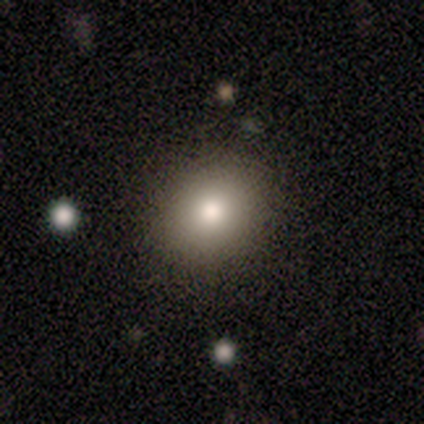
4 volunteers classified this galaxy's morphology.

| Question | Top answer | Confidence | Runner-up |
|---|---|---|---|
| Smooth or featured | smooth | 100% | — |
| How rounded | round | 100% | — |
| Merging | none | 75% | minor disturbance (25%) |